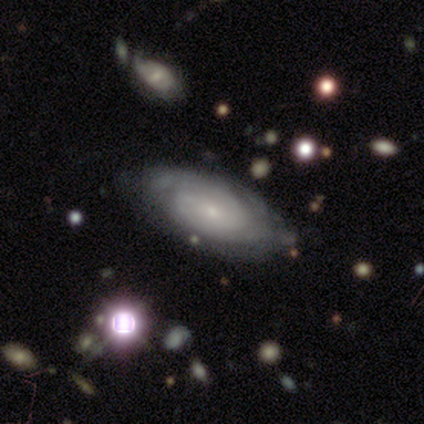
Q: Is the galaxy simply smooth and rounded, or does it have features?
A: featured or disk — 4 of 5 (80%).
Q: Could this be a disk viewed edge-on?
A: no — 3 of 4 (75%).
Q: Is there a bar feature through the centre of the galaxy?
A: no — 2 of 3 (67%).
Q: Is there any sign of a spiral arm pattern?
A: yes — 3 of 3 (100%).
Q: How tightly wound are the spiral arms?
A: tight — 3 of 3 (100%).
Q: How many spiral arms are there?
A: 2 — 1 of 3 (33%, tied with 3 and can't tell).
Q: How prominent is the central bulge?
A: small — 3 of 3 (100%).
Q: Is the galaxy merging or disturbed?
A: none — 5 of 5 (100%).